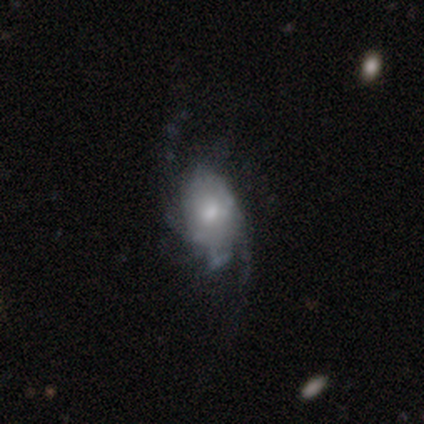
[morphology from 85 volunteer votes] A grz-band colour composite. It shows a featured or disk galaxy (72%) with no bar (67%), 2 (37%) medium (37%, tied with loose) spiral arms (90%) and a moderate central bulge (52%). Merging: none (42%).